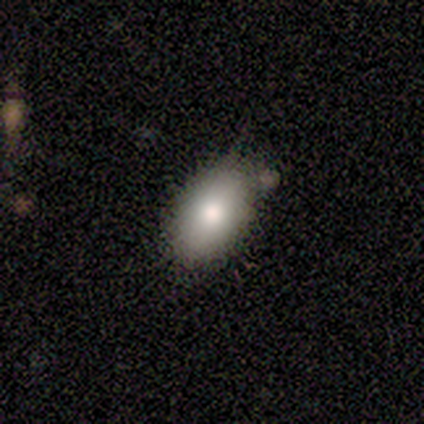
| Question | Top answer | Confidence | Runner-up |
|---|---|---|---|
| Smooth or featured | smooth | 75% | featured or disk (25%) |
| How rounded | in between | 100% | — |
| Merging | none | 100% | — |